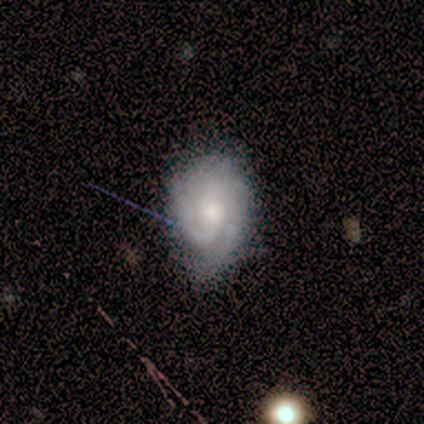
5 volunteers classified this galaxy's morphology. Smooth or featured: featured or disk — 80% (smooth — 20%)
Edge-on disk: no — 100%
Bar: no — 75% (weak — 25%)
Spiral arms: yes — 75% (no — 25%)
Spiral winding: medium — 67% (loose — 33%)
Spiral arm count: 2 — 67% (more than 4 — 33%)
Bulge size: moderate — 75% (small — 25%)
Merging: none — 80% (minor disturbance — 20%)